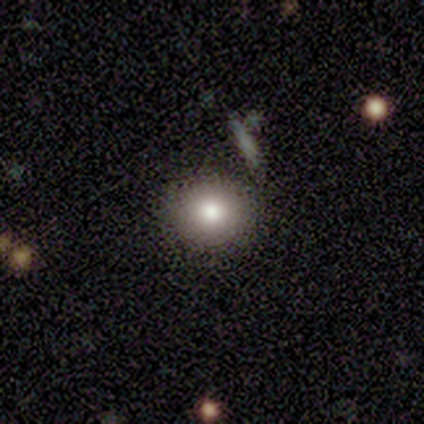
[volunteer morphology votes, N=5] A smooth galaxy with no disk features (100%) that is round (100%).

Vote fractions:
- Smooth or featured? smooth: 100% / featured or disk: 0% / star or artifact: 0%
- How rounded? round: 100% / in between: 0% / cigar-shaped: 0%
- Merging? none: 80% / major disturbance: 20% / minor disturbance: 0% / merger: 0%